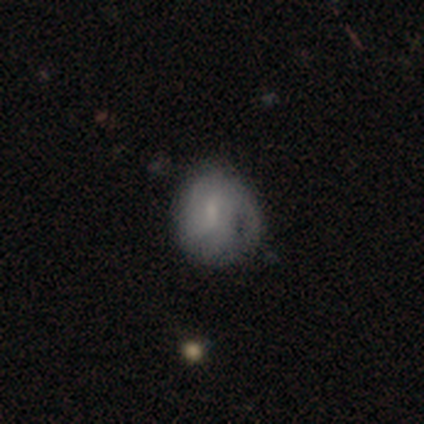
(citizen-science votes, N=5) smooth-or-featured: smooth: 80% | featured or disk: 20% | star or artifact: 0%
  how-rounded: round: 100% | in between: 0% | cigar-shaped: 0%
  merging: none: 40% (tied) | major disturbance: 40% (tied) | minor disturbance: 20% | merger: 0%